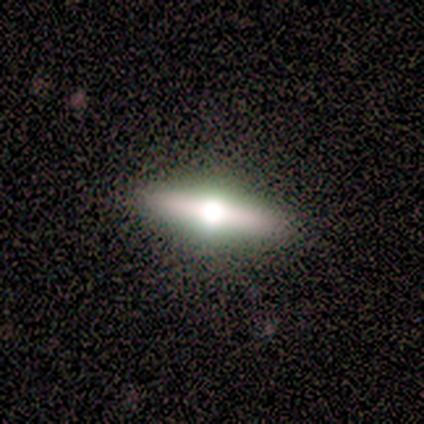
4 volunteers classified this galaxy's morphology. Volunteers were most divided on "smooth or featured" (2-way tie): smooth: 50%, featured or disk: 50%, star or artifact: 0%; "how rounded" (2-way tie): in between: 50%, cigar-shaped: 50%, round: 0%. More confident: merging — none (100%).